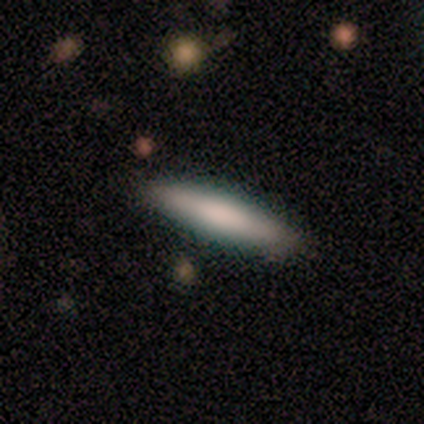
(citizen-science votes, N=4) smooth_or_featured: smooth (p=0.75) [alt: star or artifact p=0.25]
how_rounded: in between (p=0.67) [alt: cigar-shaped p=0.33]
merging: none (p=0.67) [alt: minor disturbance p=0.33]